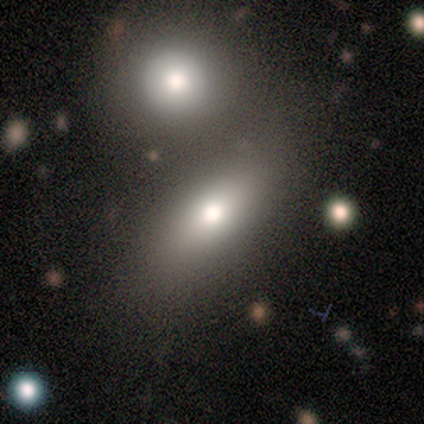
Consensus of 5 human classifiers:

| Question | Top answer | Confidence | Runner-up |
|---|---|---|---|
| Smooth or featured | smooth | 100% | — |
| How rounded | in between | 100% | — |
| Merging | none | 60% | minor disturbance (20%) |